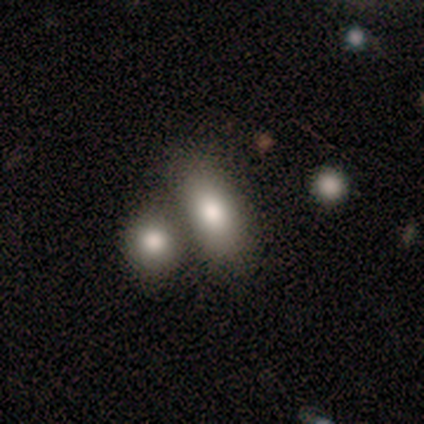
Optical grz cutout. It shows a smooth galaxy with no disk features (79%) that is in between round and cigar-shaped (90%). Merging: merger (56%).